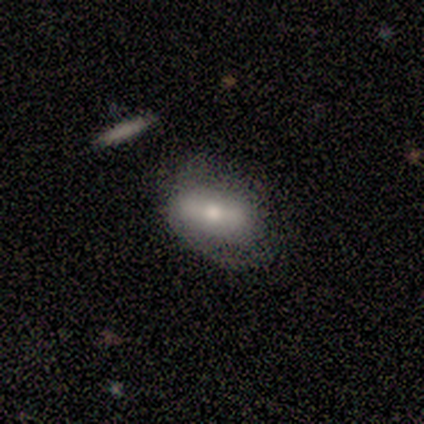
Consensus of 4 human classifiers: Smooth or featured: featured or disk — 75% (star or artifact — 25%)
Edge-on disk: no — 100%
Bar: no — 67% (strong — 33%)
Spiral arms: yes — 67% (no — 33%)
Spiral winding: medium — 50% (tied with loose — 50%)
Spiral arm count: 1 — 100%
Bulge size: large — 33% (tied with moderate — 33%; small — 33%)
Merging: none — 67% (minor disturbance — 33%)